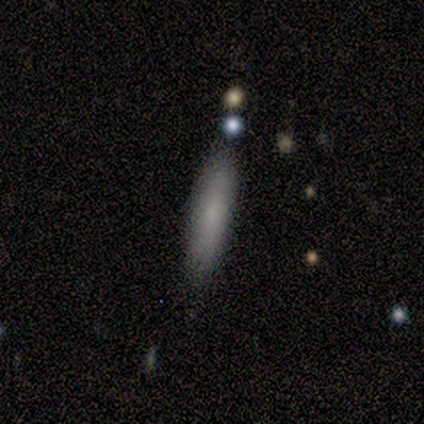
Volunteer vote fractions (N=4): Q: Smooth or featured?
A: smooth (100%)
Q: How rounded?
A: cigar-shaped (100%)
Q: Merging?
A: none (100%)